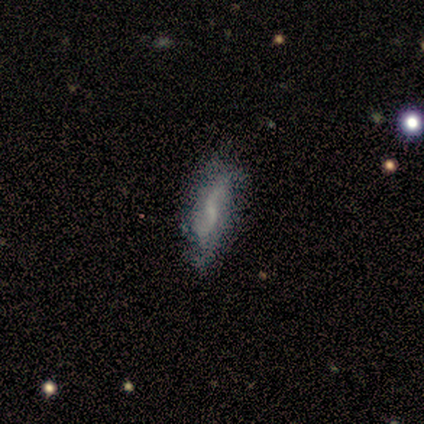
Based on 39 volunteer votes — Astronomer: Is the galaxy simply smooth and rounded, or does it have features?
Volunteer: featured or disk — 72%.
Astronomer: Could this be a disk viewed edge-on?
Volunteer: no — 86%.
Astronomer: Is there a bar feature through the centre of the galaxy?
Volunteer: weak — 58% (runner-up: no, 42%).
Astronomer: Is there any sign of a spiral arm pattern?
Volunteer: yes — 83%.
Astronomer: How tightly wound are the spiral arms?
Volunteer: loose — 70%.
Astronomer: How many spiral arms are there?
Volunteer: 2 — 90%.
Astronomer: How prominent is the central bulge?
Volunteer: none — 62%.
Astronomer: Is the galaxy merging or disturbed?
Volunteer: none — 70%.